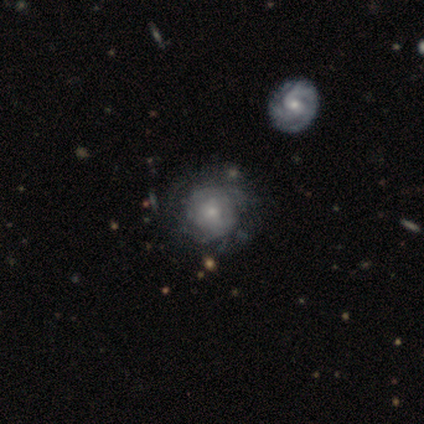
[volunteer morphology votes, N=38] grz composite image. It shows a smooth galaxy with no disk features (50%) that is round (89%). Merging: none (78%).